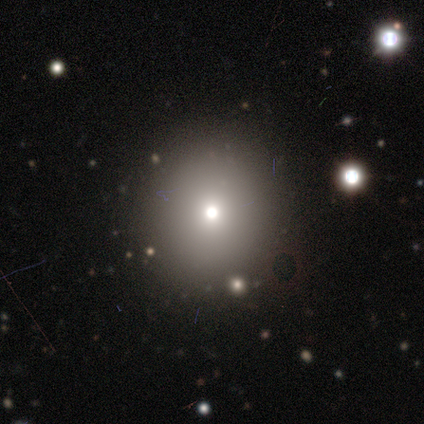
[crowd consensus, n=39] smooth_or_featured: smooth (p=0.59) [alt: star or artifact p=0.36]
how_rounded: round (p=0.91) [alt: in between p=0.09]
merging: none (p=0.92) [alt: minor disturbance p=0.08]